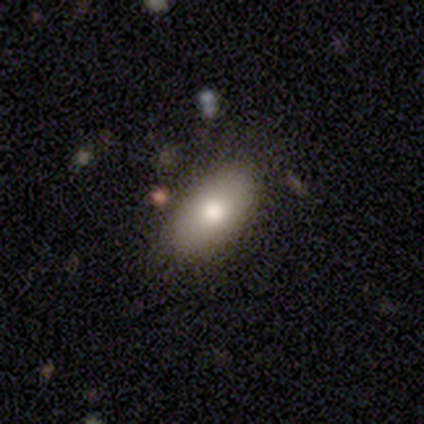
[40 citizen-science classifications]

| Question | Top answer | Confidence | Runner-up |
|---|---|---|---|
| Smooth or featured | smooth | 82% | featured or disk (12%) |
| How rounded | in between | 97% | round (3%) |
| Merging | none | 92% | major disturbance (5%) |